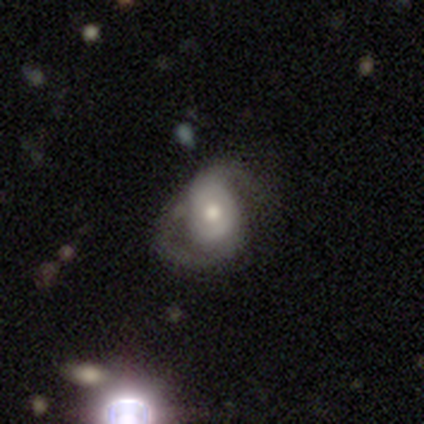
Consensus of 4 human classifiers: This appears to be a smooth galaxy with no disk features (50%, tied with featured or disk) that is round (50%, tied with in between). Merging: minor disturbance (50%, tied with major disturbance).